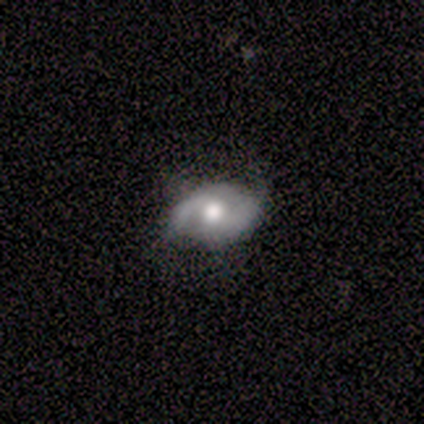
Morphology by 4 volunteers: A featured or disk galaxy (75%) with no bar (67%), 1 (50%, tied with 2) medium (50%, tied with loose) spiral arms (67%) and a large central bulge (33%, tied with moderate and none).

Vote fractions:
- Smooth or featured? featured or disk: 75% / star or artifact: 25% / smooth: 0%
- Edge-on disk? no: 100% / yes: 0%
- Bar? no: 67% / weak: 33% / strong: 0%
- Spiral arms? yes: 67% / no: 33%
- Spiral winding? medium: 50% (tied) / loose: 50% (tied) / tight: 0%
- Spiral arm count? 1: 50% (tied) / 2: 50% (tied) / 3: 0% / 4: 0% / more than 4: 0% / can't tell: 0%
- Bulge size? large: 33% (tied) / moderate: 33% (tied) / none: 33% (tied) / dominant: 0% / small: 0%
- Merging? minor disturbance: 67% / major disturbance: 33% / none: 0% / merger: 0%